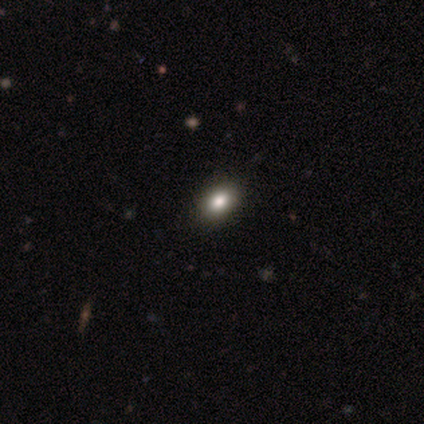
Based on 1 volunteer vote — Smooth or featured: featured or disk — 100%
Edge-on disk: yes — 100%
Edge-on bulge: rounded — 100%
Merging: minor disturbance — 100%